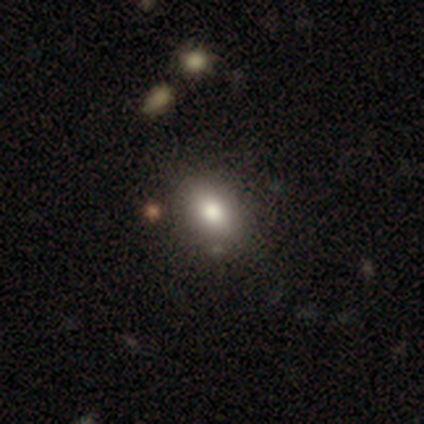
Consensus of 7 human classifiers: A smooth galaxy with no disk features (86%) that is in between round and cigar-shaped (50%).

Vote fractions:
- Smooth or featured? smooth: 86% / featured or disk: 14% / star or artifact: 0%
- How rounded? in between: 50% / round: 33% / cigar-shaped: 17%
- Merging? none: 57% / minor disturbance: 43% / major disturbance: 0% / merger: 0%